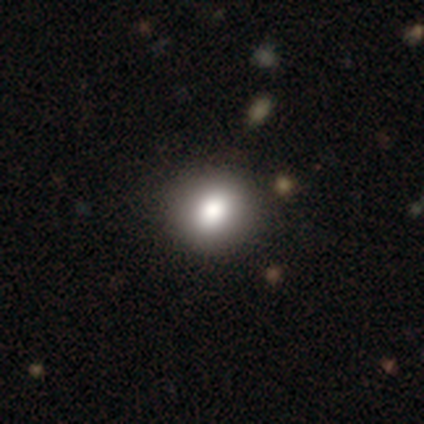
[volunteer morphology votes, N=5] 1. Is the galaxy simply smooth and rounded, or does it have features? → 100% smooth, 0% featured or disk, 0% star or artifact.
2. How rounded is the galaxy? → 100% round, 0% in between, 0% cigar-shaped.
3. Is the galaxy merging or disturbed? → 100% none, 0% minor disturbance, 0% major disturbance, 0% merger.